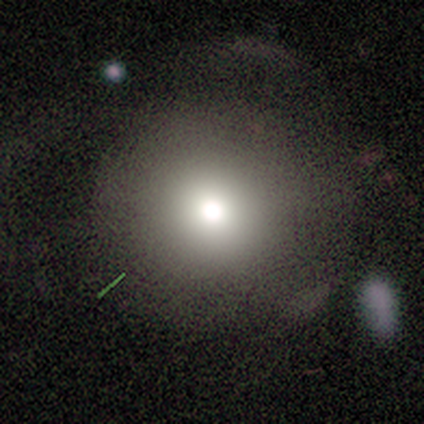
This appears to be a smooth galaxy with no disk features (80%) that is round (98%). Merging: none (38%).